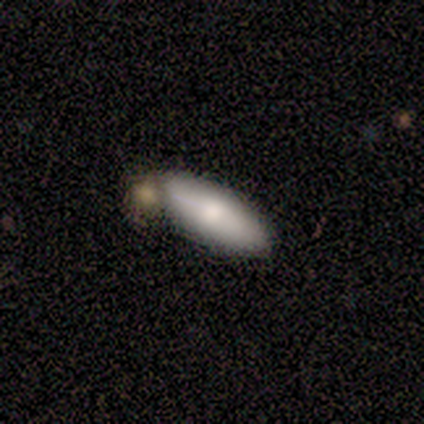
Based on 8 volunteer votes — Overall: smooth (50%; featured or disk 38%). How rounded: in between (75%). Merging: none (43%, tied with minor disturbance).